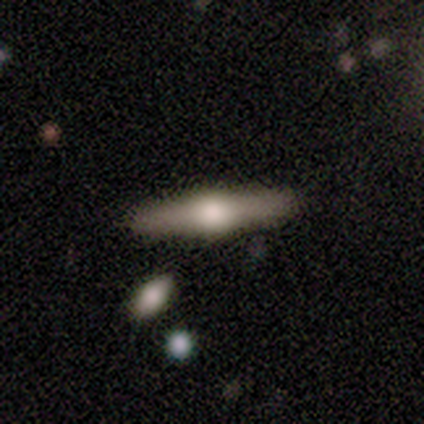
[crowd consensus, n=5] Volunteers were most divided on "smooth or featured": featured or disk: 80%, smooth: 20%, star or artifact: 0%. More confident: edge-on disk — yes (100%); edge-on bulge — rounded (100%); merging — none (80%).